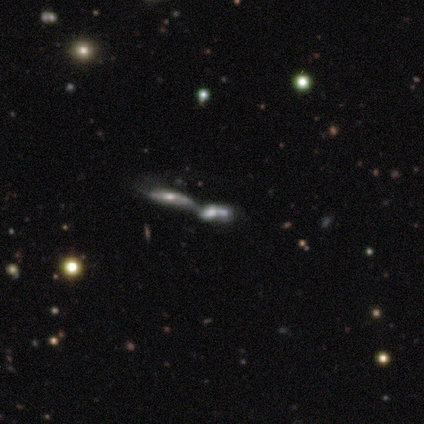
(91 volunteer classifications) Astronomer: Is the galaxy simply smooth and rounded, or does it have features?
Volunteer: featured or disk — 51% (runner-up: smooth, 30%).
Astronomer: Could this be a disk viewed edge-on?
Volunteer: no — 59% (runner-up: yes, 41%).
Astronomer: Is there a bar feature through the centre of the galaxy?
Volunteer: no — 85%.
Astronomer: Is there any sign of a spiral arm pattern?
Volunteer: yes — 52% (runner-up: no, 48%).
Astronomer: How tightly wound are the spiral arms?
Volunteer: tight — 36%, tied with medium at 36%.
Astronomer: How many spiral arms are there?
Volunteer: can't tell — 57%.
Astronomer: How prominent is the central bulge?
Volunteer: moderate — 44% (runner-up: small, 30%).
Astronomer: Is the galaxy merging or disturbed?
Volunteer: merger — 78%.